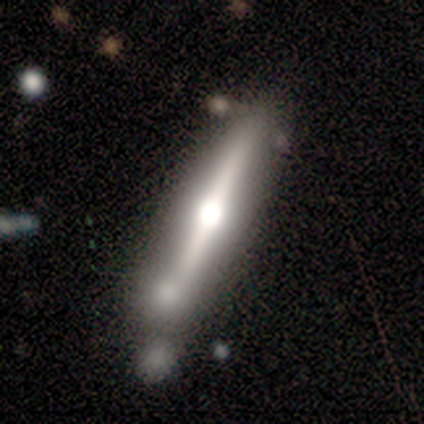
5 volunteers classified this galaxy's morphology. Overall: featured or disk (60%; smooth 20%). Edge-on disk: yes (100%). Edge-on bulge: rounded (100%). Merging: none (50%; minor disturbance 25%).